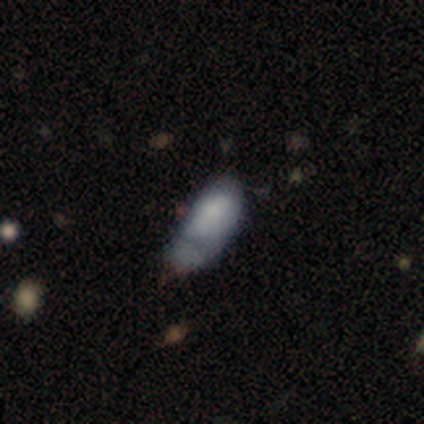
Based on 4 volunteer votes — Morphology: type=smooth (100%); roundness=in between (100%); merging=minor disturbance (50%).